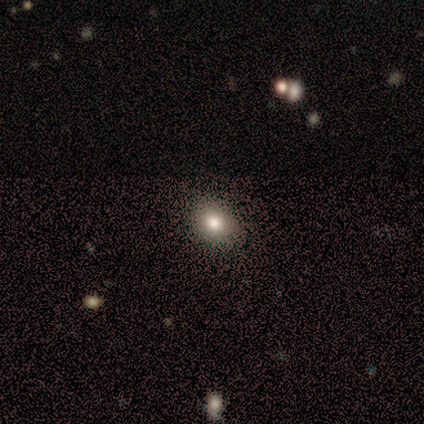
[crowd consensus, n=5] A smooth galaxy with no disk features (80%) that is round (75%). Merging: none (100%).